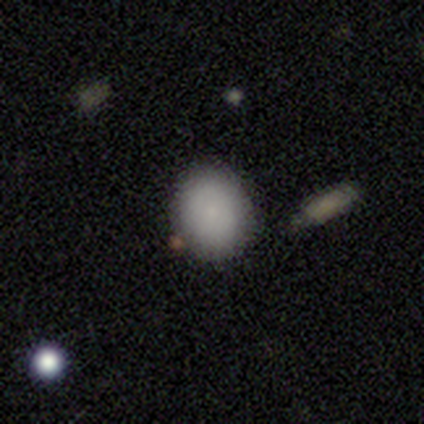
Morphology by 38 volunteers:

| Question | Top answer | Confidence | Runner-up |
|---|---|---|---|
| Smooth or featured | smooth | 89% | featured or disk (8%) |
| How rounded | round | 74% | in between (26%) |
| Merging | none | 86% | minor disturbance (8%) |